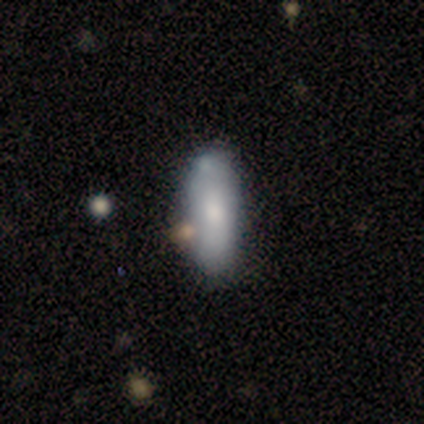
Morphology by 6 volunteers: smooth_or_featured: smooth (p=0.83) [alt: featured or disk p=0.17]
how_rounded: in between (p=0.60) [alt: cigar-shaped p=0.40]
merging: none (p=0.50) [tied with: major disturbance p=0.50]